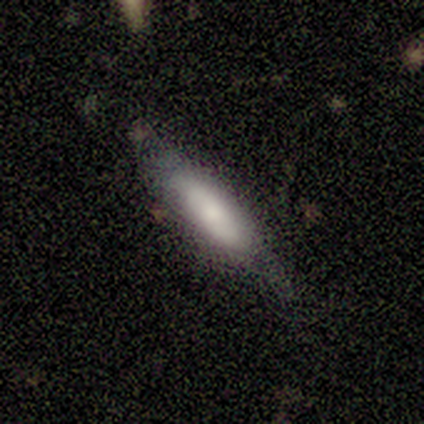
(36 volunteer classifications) Smooth or featured: smooth — 53% (featured or disk — 36%)
How rounded: cigar-shaped — 79% (in between — 21%)
Merging: none — 72% (minor disturbance — 25%)